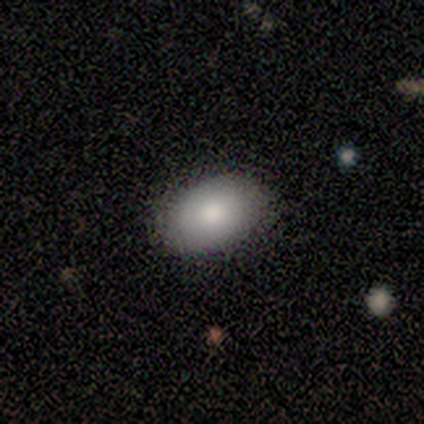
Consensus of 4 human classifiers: Overall: smooth (50%, tied with featured or disk). How rounded: in between (100%). Merging: none (75%).